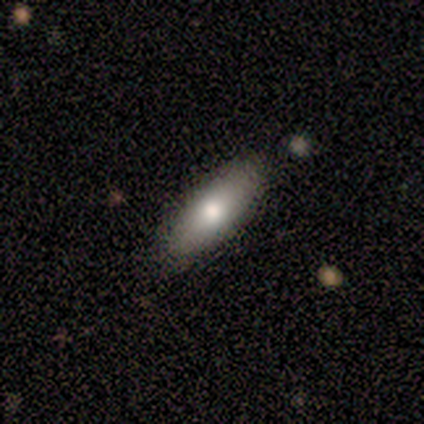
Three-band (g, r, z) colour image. It shows a smooth galaxy with no disk features (50%) that is in between round and cigar-shaped (100%). Merging: none (67%).